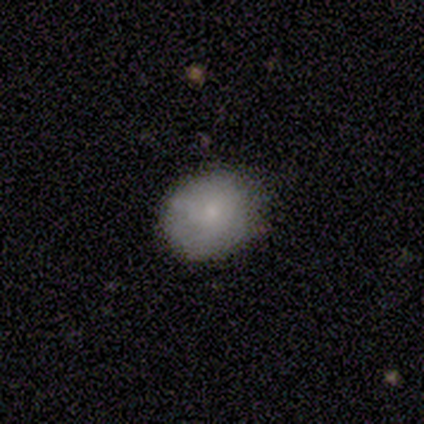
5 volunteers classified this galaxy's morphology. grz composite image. It shows a smooth galaxy with no disk features (60%) that is round (100%). Merging: none (75%).